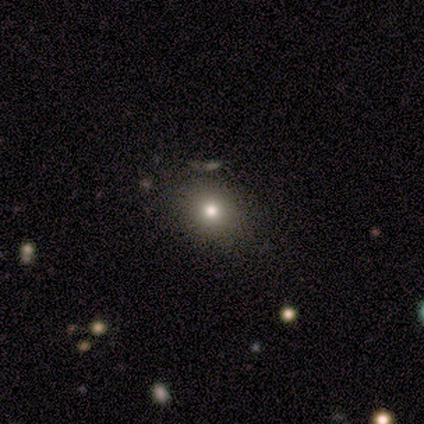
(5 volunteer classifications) Smooth or featured: smooth — 80% (featured or disk — 20%)
How rounded: round — 75% (in between — 25%)
Merging: none — 100%